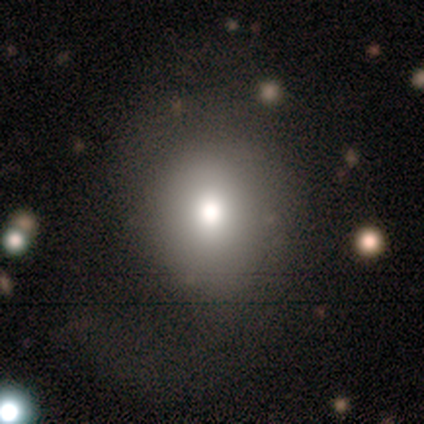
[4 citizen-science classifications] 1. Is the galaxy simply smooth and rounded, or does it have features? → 50% smooth (tied), 50% star or artifact (tied), 0% featured or disk.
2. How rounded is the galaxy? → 50% round (tied), 50% in between (tied), 0% cigar-shaped.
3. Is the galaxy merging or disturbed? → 100% none, 0% minor disturbance, 0% major disturbance, 0% merger.